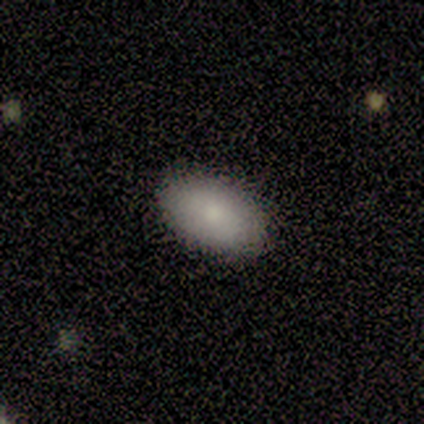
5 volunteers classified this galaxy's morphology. smooth-or-featured: smooth: 100% | featured or disk: 0% | star or artifact: 0%
  how-rounded: in between: 80% | cigar-shaped: 20% | round: 0%
  merging: none: 100% | minor disturbance: 0% | major disturbance: 0% | merger: 0%